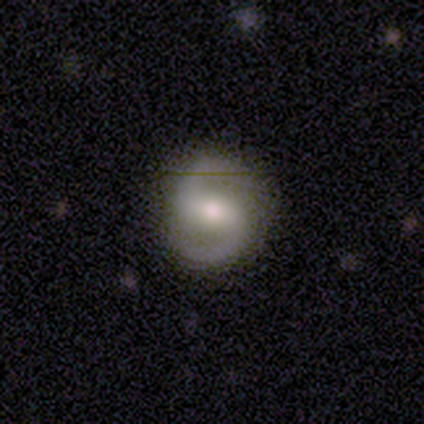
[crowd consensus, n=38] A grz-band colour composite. It shows a featured or disk galaxy (84%) with a strong bar (42%, tied with weak), 2 (100%) medium (63%) spiral arms (97%) and a moderate central bulge (74%). Merging: none (92%).